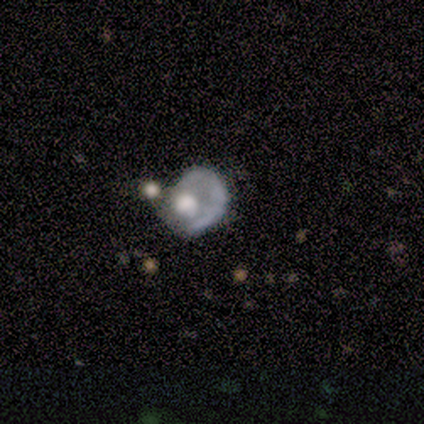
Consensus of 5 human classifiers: Smooth or featured: smooth — 60% (featured or disk — 40%)
How rounded: round — 67% (in between — 33%)
Merging: minor disturbance — 40% (none — 20%)